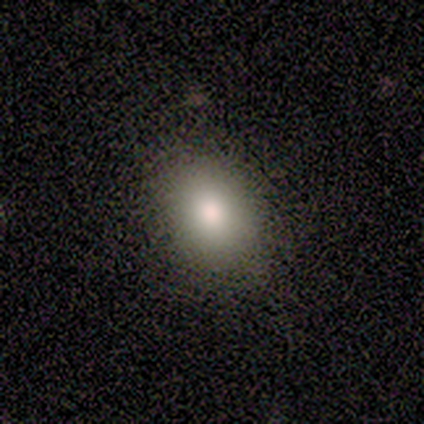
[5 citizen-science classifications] Smooth or featured?
  - smooth: 100% *
  - featured or disk: 0%
  - star or artifact: 0%
How rounded?
  - in between: 80% *
  - round: 20%
  - cigar-shaped: 0%
Merging?
  - none: 80% *
  - minor disturbance: 20%
  - major disturbance: 0%
  - merger: 0%